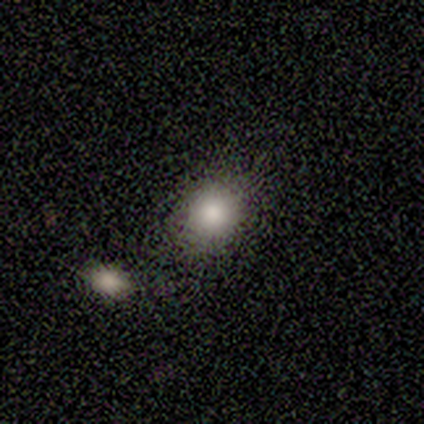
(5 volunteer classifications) Smooth or featured? 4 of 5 (80%) said smooth. How rounded? 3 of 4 (75%) said round. Merging? 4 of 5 (80%) said none.